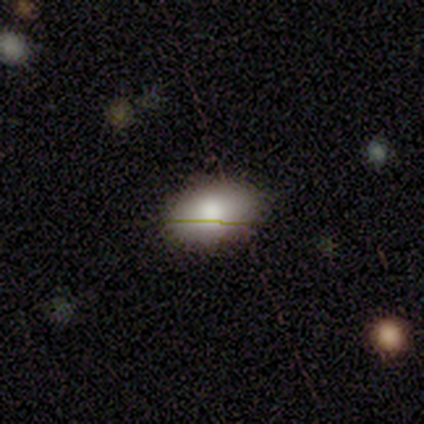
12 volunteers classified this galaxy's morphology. This is likely a smooth galaxy (75%). How rounded: clearly in between (89%). Merging: clearly none (80%).